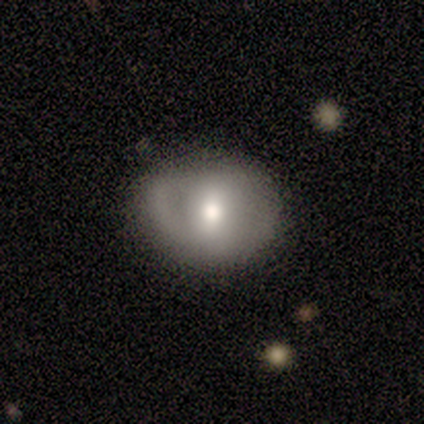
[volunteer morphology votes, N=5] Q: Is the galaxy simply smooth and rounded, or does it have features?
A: featured or disk — 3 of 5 (60%).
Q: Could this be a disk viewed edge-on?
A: no — 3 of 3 (100%).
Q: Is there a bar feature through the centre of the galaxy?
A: strong — 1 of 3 (33%, tied with weak and no).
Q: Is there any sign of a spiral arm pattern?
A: yes — 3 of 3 (100%).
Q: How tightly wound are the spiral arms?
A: tight — 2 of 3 (67%).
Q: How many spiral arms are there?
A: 2 — 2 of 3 (67%).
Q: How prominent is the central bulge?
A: moderate — 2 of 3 (67%).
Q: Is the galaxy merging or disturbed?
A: none — 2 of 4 (50%, tied with minor disturbance).